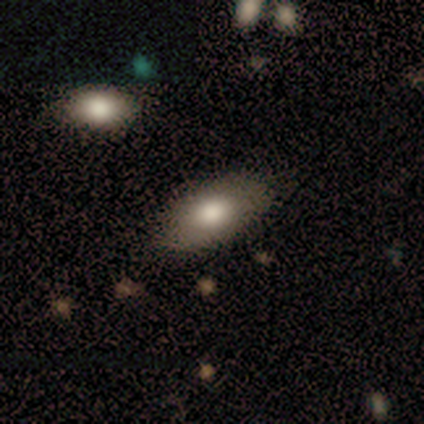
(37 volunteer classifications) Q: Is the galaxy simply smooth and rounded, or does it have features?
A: smooth — 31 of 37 (84%).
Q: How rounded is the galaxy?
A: in between — 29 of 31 (94%).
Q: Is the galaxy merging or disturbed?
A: none — 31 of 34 (91%).